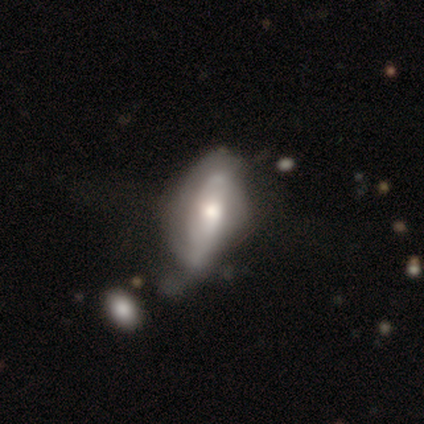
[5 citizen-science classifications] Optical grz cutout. It shows a featured or disk galaxy (60%) with no bar (100%), tight (100%) spiral arms (67%) and a moderate central bulge (100%). Merging: major disturbance (50%).